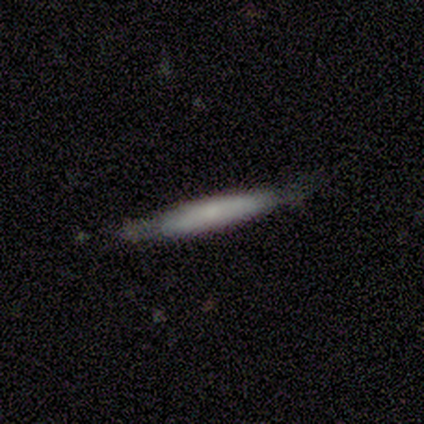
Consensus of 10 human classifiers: Smooth or featured? 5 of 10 (50%) said smooth. How rounded? 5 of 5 (100%) said cigar-shaped. Merging? 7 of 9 (78%) said none.